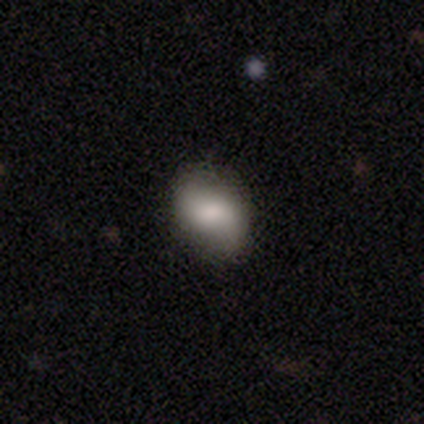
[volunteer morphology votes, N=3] smooth_or_featured: featured or disk (p=0.67) [alt: smooth p=0.33]
disk_edge_on: no (p=1.00)
bar: weak (p=0.50) [tied with: no p=0.50]
has_spiral_arms: yes (p=0.50) [tied with: no p=0.50]
spiral_winding: loose (p=1.00)
spiral_arm_count: 2 (p=1.00)
bulge_size: large (p=0.50) [tied with: small p=0.50]
merging: none (p=1.00)